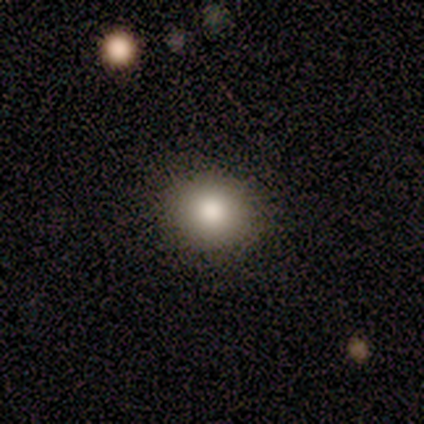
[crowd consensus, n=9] A smooth galaxy with no disk features (89%) that is round (100%). Merging: none (100%).